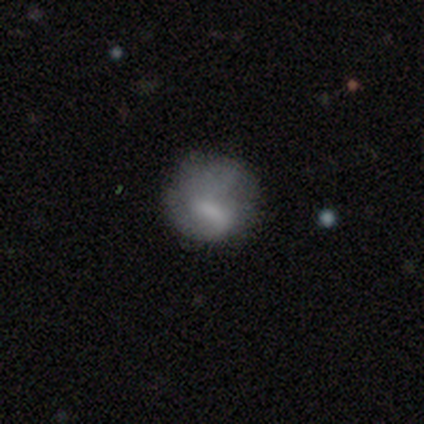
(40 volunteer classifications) A smooth galaxy with no disk features (65%) that is round (73%).

Vote fractions:
- Smooth or featured? smooth: 65% / featured or disk: 30% / star or artifact: 5%
- How rounded? round: 73% / in between: 27% / cigar-shaped: 0%
- Merging? none: 58% / major disturbance: 24% / minor disturbance: 16% / merger: 3%